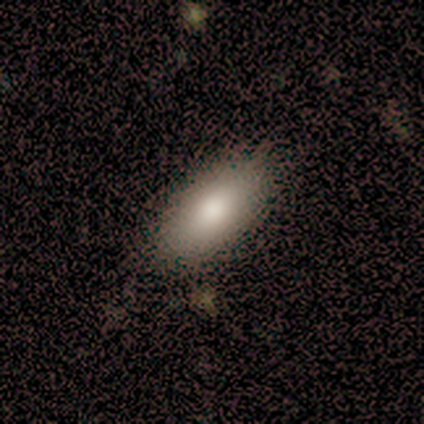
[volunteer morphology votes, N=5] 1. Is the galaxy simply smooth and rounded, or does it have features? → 80% smooth, 20% featured or disk, 0% star or artifact.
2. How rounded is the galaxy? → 100% in between, 0% round, 0% cigar-shaped.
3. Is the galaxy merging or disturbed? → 80% none, 20% minor disturbance, 0% major disturbance, 0% merger.